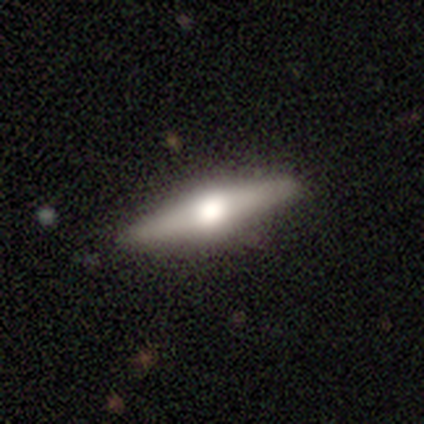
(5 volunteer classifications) smooth_or_featured: featured or disk (p=0.60) [alt: smooth p=0.40]
disk_edge_on: yes (p=1.00)
edge_on_bulge: rounded (p=1.00)
merging: none (p=1.00)